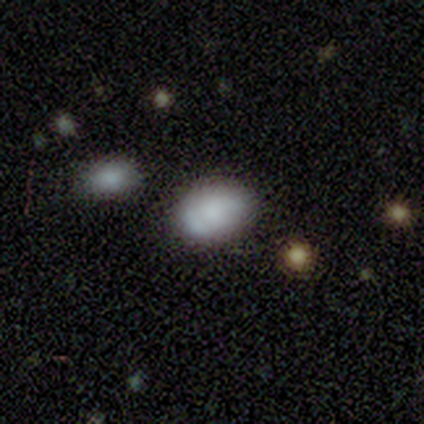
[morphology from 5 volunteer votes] Q: Smooth or featured?
A: smooth (100%)
Q: How rounded?
A: in between (60%); runner-up: round (40%)
Q: Merging?
A: none (80%); runner-up: minor disturbance (20%)